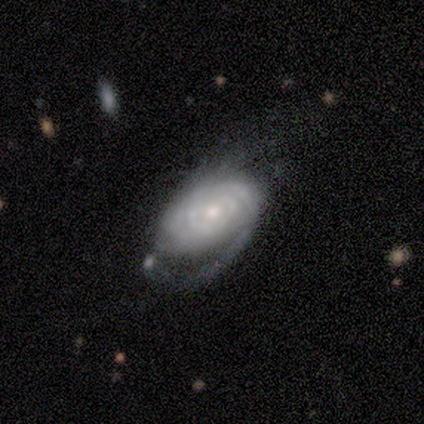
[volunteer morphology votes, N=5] A featured or disk galaxy (100%) with no bar (100%), 2 (25%, tied with 3, 4 and can't tell) tight (50%) spiral arms (80%) and a small central bulge (60%). Merging: none (60%).